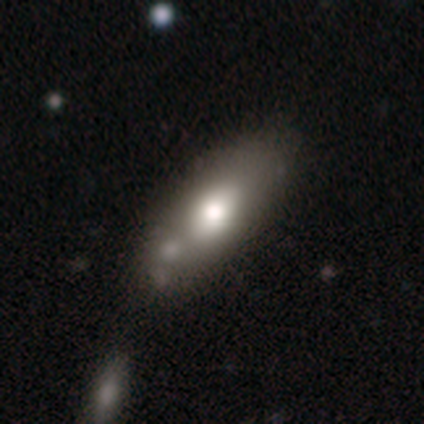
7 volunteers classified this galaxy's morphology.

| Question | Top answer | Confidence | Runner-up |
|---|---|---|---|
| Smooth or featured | smooth | 71% | featured or disk (14%) |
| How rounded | in between | 100% | — |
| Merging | none | 50% | merger (33%) |